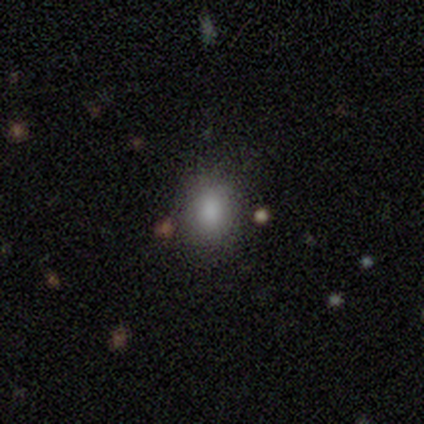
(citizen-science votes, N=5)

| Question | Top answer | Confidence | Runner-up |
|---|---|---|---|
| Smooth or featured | smooth | 80% | star or artifact (20%) |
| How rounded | round | 100% | — |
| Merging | none | 100% | — |